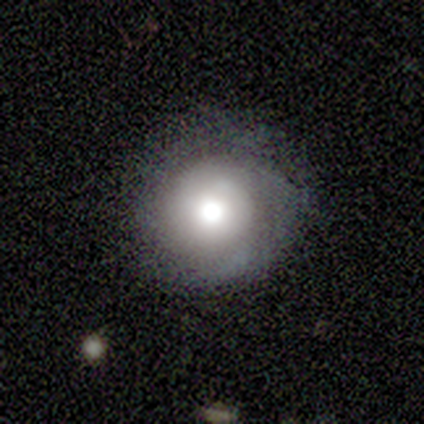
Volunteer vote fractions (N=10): A smooth galaxy with no disk features (60%) that is round (83%).

Vote fractions:
- Smooth or featured? smooth: 60% / featured or disk: 40% / star or artifact: 0%
- How rounded? round: 83% / in between: 17% / cigar-shaped: 0%
- Merging? none: 80% / minor disturbance: 20% / major disturbance: 0% / merger: 0%